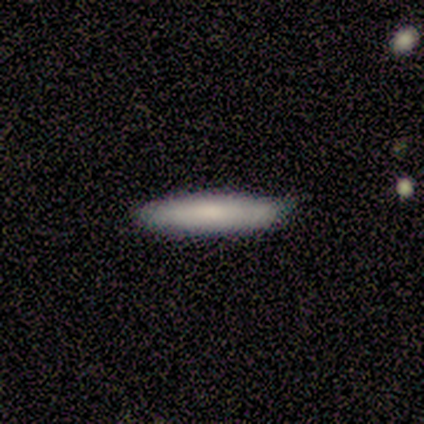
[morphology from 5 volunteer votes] Smooth or featured: smooth — 80% (featured or disk — 20%)
How rounded: cigar-shaped — 100%
Merging: none — 80% (minor disturbance — 20%)